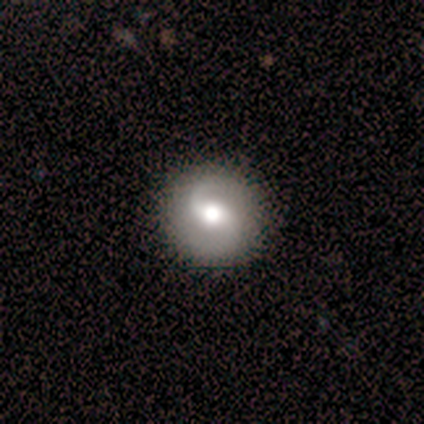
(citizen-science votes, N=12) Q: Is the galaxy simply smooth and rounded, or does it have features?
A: featured or disk — 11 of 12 (92%).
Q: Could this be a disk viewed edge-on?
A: no — 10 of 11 (91%).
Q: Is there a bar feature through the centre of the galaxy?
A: no — 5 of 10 (50%).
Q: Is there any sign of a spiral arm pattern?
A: yes — 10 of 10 (100%).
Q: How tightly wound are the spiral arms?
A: medium — 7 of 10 (70%).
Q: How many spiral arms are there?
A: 2 — 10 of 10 (100%).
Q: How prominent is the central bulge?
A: moderate — 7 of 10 (70%).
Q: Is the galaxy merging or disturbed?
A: none — 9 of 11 (82%).